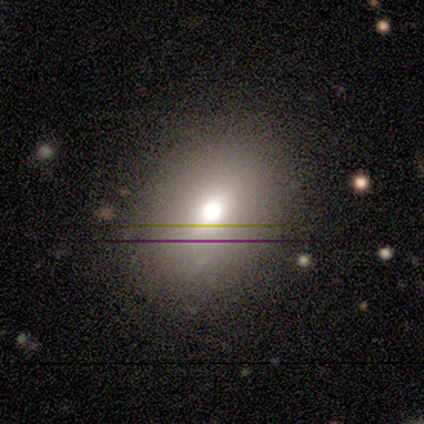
Overall: featured or disk (100%). Edge-on disk: no (100%). Bar: no (100%). Spiral arms: no (100%). Bulge size: moderate (100%). Merging: none (100%).